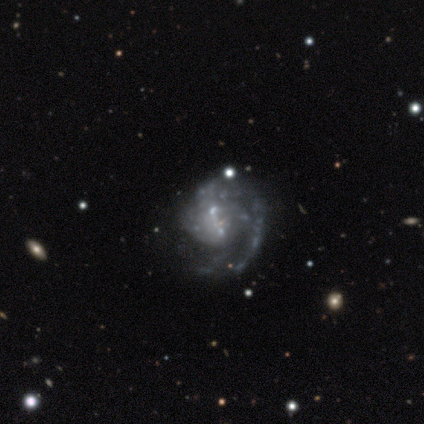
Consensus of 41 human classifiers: featured or disk 88%, star or artifact 10%, smooth 2%. Down the decision tree: edge-on disk — no (100%); bar — no (67%); spiral arms — yes (89%); spiral arm count — 1 (50%); spiral winding — medium (56%); bulge size — small (47%, tied with none); merging — none (30%).